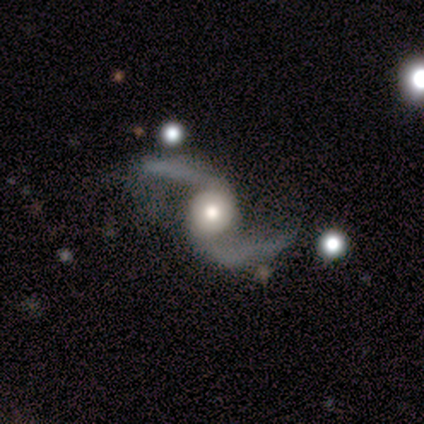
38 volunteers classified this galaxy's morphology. A featured or disk galaxy (97%) with no bar (68%), 2 (95%) loose (97%) spiral arms (100%) and a moderate central bulge (46%).

Vote fractions:
- Smooth or featured? featured or disk: 97% / smooth: 3% / star or artifact: 0%
- Edge-on disk? no: 100% / yes: 0%
- Bar? no: 68% / weak: 19% / strong: 14%
- Spiral arms? yes: 100% / no: 0%
- Spiral winding? loose: 97% / medium: 3% / tight: 0%
- Spiral arm count? 2: 95% / 1: 3% / can't tell: 3% / 3: 0% / 4: 0% / more than 4: 0%
- Bulge size? moderate: 46% / large: 32% / dominant: 11% / small: 11% / none: 0%
- Merging? none: 66% / minor disturbance: 21% / major disturbance: 11% / merger: 3%